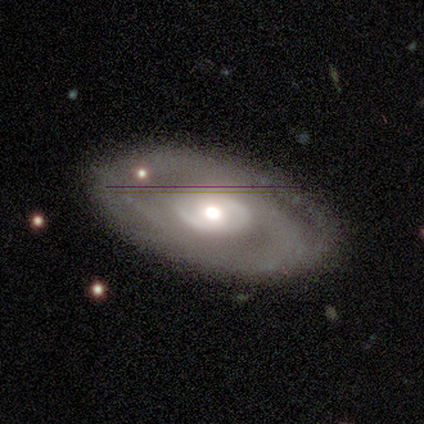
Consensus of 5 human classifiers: smooth-or-featured: featured or disk: 60% | smooth: 40% | star or artifact: 0%
  disk-edge-on: no: 100% | yes: 0%
    bar: no: 67% | weak: 33% | strong: 0%
    has-spiral-arms: yes: 67% | no: 33%
      spiral-winding: medium: 100% | tight: 0% | loose: 0%
      spiral-arm-count: 1: 100% | 2: 0% | 3: 0% | 4: 0% | more than 4: 0% | can't tell: 0%
    bulge-size: moderate: 67% | large: 33% | dominant: 0% | small: 0% | none: 0%
  merging: none: 80% | minor disturbance: 20% | major disturbance: 0% | merger: 0%